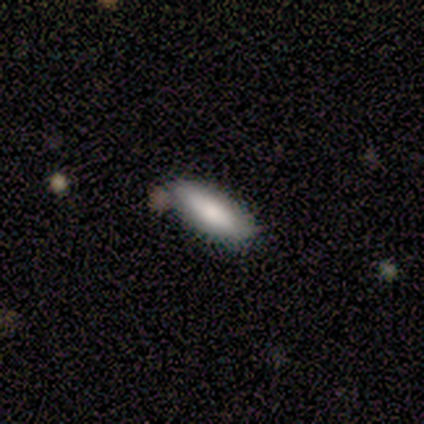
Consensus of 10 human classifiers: Smooth or featured? smooth (90%)
How rounded? in between (67%)
Merging? none (70%)